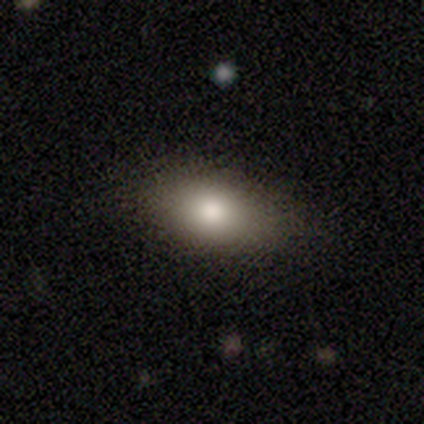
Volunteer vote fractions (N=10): A smooth galaxy with no disk features (90%) that is in between round and cigar-shaped (89%).

Vote fractions:
- Smooth or featured? smooth: 90% / star or artifact: 10% / featured or disk: 0%
- How rounded? in between: 89% / round: 11% / cigar-shaped: 0%
- Merging? none: 89% / minor disturbance: 11% / major disturbance: 0% / merger: 0%